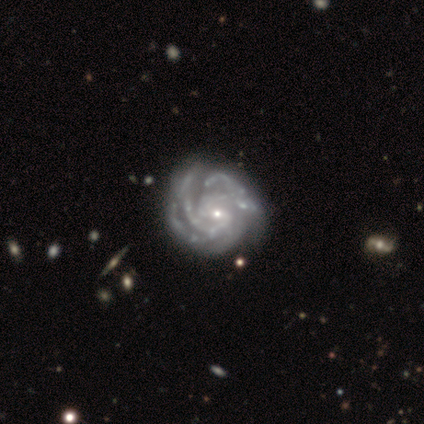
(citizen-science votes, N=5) A featured or disk galaxy (80%) with no bar (75%), 3 (75%) tight (100%) spiral arms (100%) and a small central bulge (100%).

Vote fractions:
- Smooth or featured? featured or disk: 80% / star or artifact: 20% / smooth: 0%
- Edge-on disk? no: 100% / yes: 0%
- Bar? no: 75% / strong: 25% / weak: 0%
- Spiral arms? yes: 100% / no: 0%
- Spiral winding? tight: 100% / medium: 0% / loose: 0%
- Spiral arm count? 3: 75% / can't tell: 25% / 1: 0% / 2: 0% / 4: 0% / more than 4: 0%
- Bulge size? small: 100% / dominant: 0% / large: 0% / moderate: 0% / none: 0%
- Merging? none: 100% / minor disturbance: 0% / major disturbance: 0% / merger: 0%